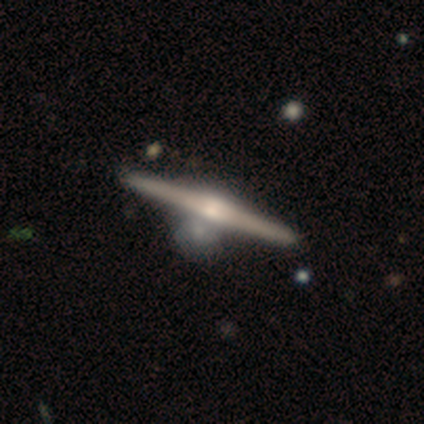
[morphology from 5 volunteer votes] Overall: featured or disk (80%). Edge-on disk: yes (100%). Edge-on bulge: rounded (100%). Merging: none (40%, tied with major disturbance).